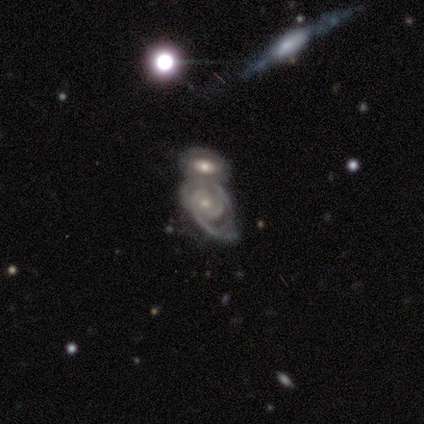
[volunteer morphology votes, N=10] smooth-or-featured: featured or disk: 80% | smooth: 20% | star or artifact: 0%
  disk-edge-on: no: 88% | yes: 12%
    bar: no: 71% | weak: 29% | strong: 0%
    has-spiral-arms: yes: 100% | no: 0%
      spiral-winding: medium: 57% | tight: 29% | loose: 14%
      spiral-arm-count: 2: 57% | can't tell: 29% | 3: 14% | 1: 0% | 4: 0% | more than 4: 0%
    bulge-size: small: 71% | moderate: 29% | dominant: 0% | large: 0% | none: 0%
  merging: merger: 100% | none: 0% | minor disturbance: 0% | major disturbance: 0%